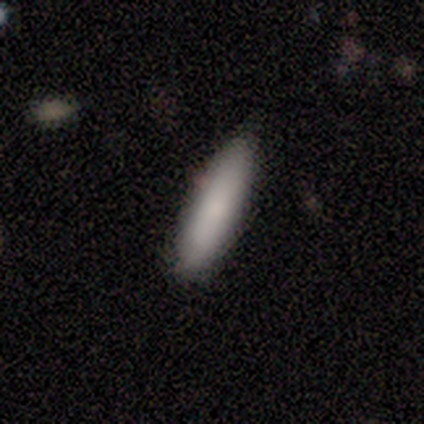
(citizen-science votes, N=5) Smooth or featured: smooth — 80% (star or artifact — 20%)
How rounded: cigar-shaped — 75% (in between — 25%)
Merging: none — 100%